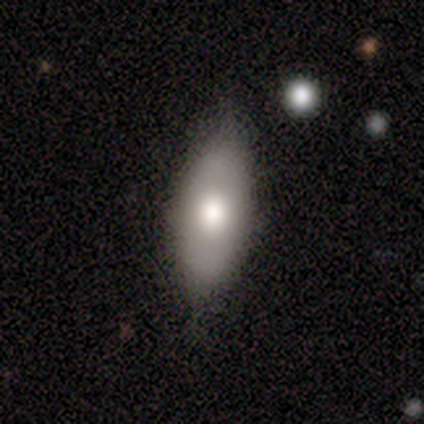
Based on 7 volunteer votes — This appears to be a smooth galaxy with no disk features (57%) that is in between round and cigar-shaped (100%). Merging: none (71%).